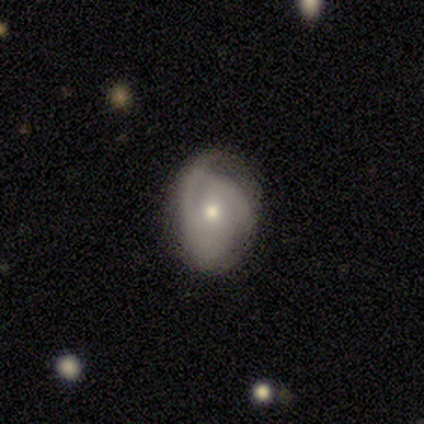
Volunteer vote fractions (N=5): This appears to be a featured or disk galaxy (100%) with no bar (60%), 3 (40%, tied with can't tell) tight (40%, tied with loose) spiral arms (100%) and a moderate central bulge (60%). Merging: none (80%).